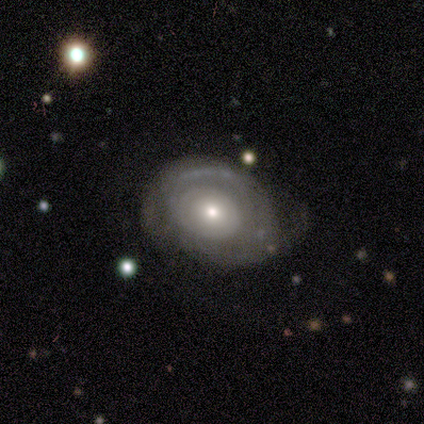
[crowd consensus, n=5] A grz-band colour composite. It shows a featured or disk galaxy (80%) with no bar (100%), 2 (67%) tight (67%) spiral arms (75%) and a moderate central bulge (50%, tied with small). Merging: none (60%).